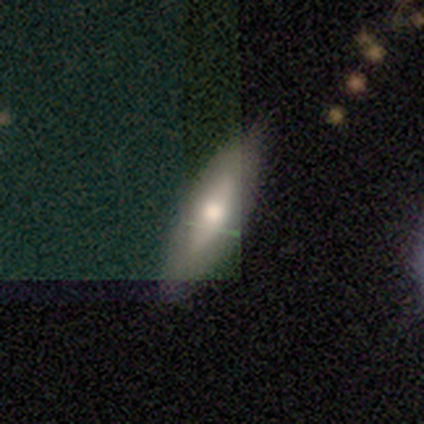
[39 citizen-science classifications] smooth 54%, featured or disk 36%, star or artifact 10%. Down the decision tree: how rounded — cigar-shaped (67%); merging — none (80%).